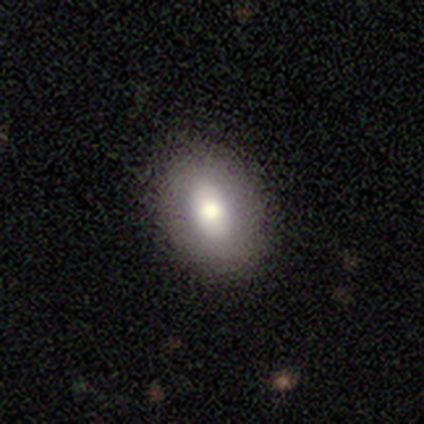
Smooth or featured? featured or disk (60%)
Edge-on disk? no (67%)
Bar? strong (50%, tied with no)
Spiral arms? no (100%)
Bulge size? moderate (100%)
Merging? none (75%)